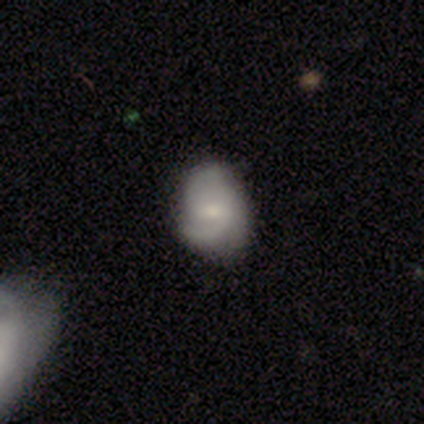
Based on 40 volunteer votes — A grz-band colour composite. It shows a featured or disk galaxy (70%) with a weak bar (75%), 2 (48%) medium (56%) spiral arms (96%) and a moderate central bulge (46%). Merging: none (54%).